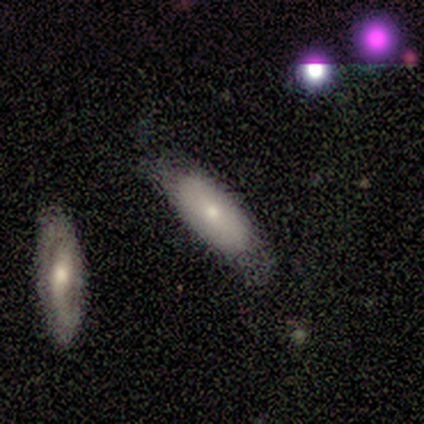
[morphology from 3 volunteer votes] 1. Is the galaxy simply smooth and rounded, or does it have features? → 33% smooth (tied), 33% featured or disk (tied), 33% star or artifact (tied).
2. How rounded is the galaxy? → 100% cigar-shaped, 0% round, 0% in between.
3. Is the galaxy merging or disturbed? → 100% none, 0% minor disturbance, 0% major disturbance, 0% merger.